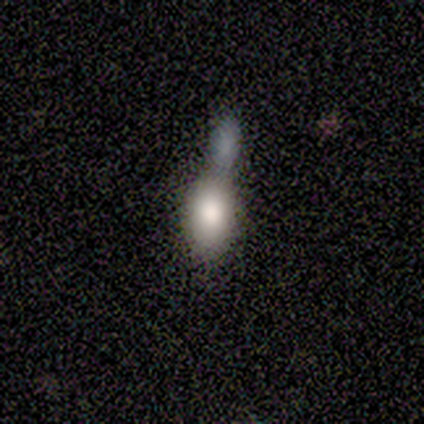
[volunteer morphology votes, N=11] type=smooth (91%); roundness=in between (100%); merging=merger (60%).